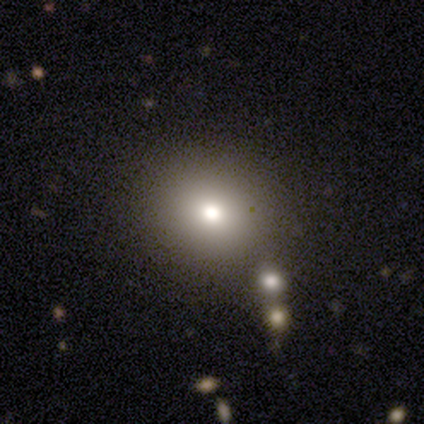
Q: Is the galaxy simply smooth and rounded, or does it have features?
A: smooth — 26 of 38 (68%).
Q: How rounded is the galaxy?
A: round — 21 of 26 (81%).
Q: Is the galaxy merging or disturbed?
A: none — 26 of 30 (87%).